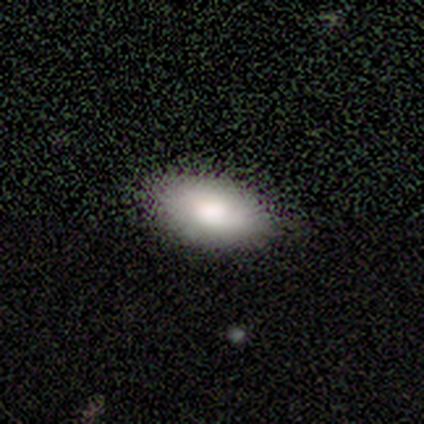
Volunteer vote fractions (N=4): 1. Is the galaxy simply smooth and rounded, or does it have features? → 75% smooth, 25% featured or disk, 0% star or artifact.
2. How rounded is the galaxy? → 67% in between, 33% cigar-shaped, 0% round.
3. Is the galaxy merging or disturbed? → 100% none, 0% minor disturbance, 0% major disturbance, 0% merger.